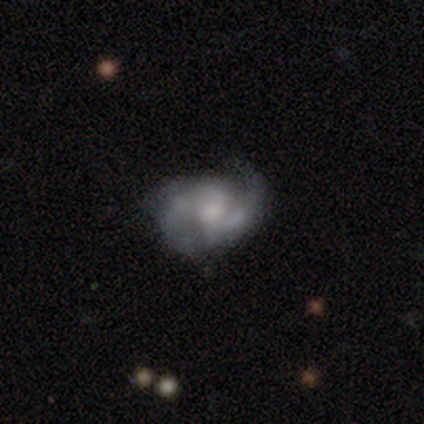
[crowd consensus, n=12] Smooth or featured: featured or disk — 75% (smooth — 17%)
Edge-on disk: no — 100%
Bar: no — 67% (weak — 33%)
Spiral arms: yes — 100%
Spiral winding: medium — 67% (loose — 22%)
Spiral arm count: 2 — 67% (3 — 11%)
Bulge size: small — 44% (none — 33%)
Merging: none — 82% (minor disturbance — 9%)